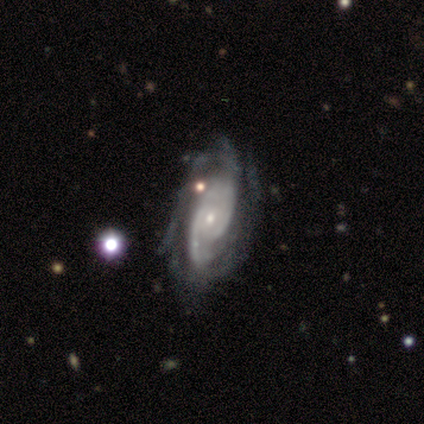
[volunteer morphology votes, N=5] smooth_or_featured: featured or disk (p=1.00)
disk_edge_on: no (p=1.00)
bar: no (p=0.80) [alt: strong p=0.20]
has_spiral_arms: yes (p=1.00)
spiral_winding: tight (p=0.60) [alt: medium p=0.40]
spiral_arm_count: 2 (p=0.40) [alt: 3 p=0.20]
bulge_size: small (p=0.60) [alt: moderate p=0.40]
merging: none (p=0.80) [alt: major disturbance p=0.20]